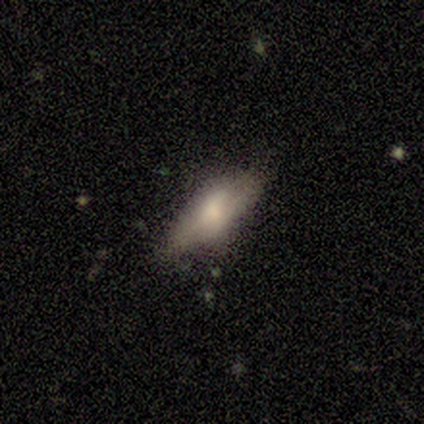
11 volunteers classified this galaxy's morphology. Smooth or featured: smooth — 64% (featured or disk — 36%)
How rounded: in between — 86% (cigar-shaped — 14%)
Merging: none — 55% (minor disturbance — 36%)